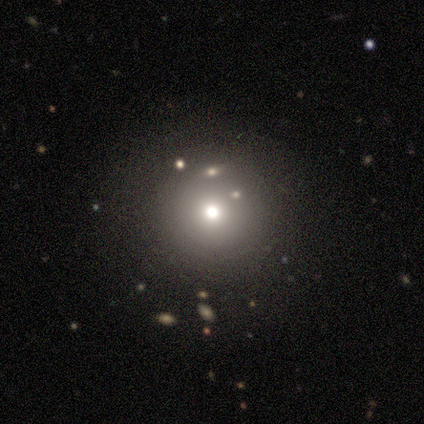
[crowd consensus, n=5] smooth_or_featured: smooth (p=0.40) [tied with: star or artifact p=0.40]
how_rounded: round (p=1.00)
merging: none (p=0.67) [alt: merger p=0.33]